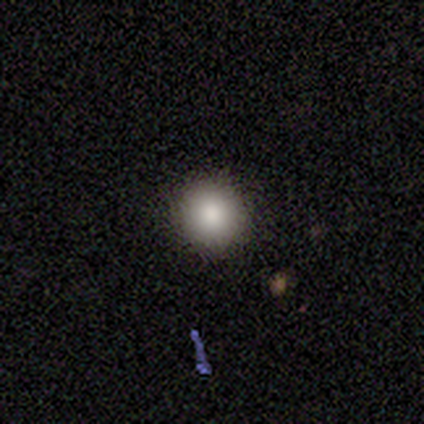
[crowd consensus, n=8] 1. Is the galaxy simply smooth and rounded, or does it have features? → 75% smooth, 25% featured or disk, 0% star or artifact.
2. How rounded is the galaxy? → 100% round, 0% in between, 0% cigar-shaped.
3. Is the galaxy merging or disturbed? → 88% none, 12% minor disturbance, 0% major disturbance, 0% merger.